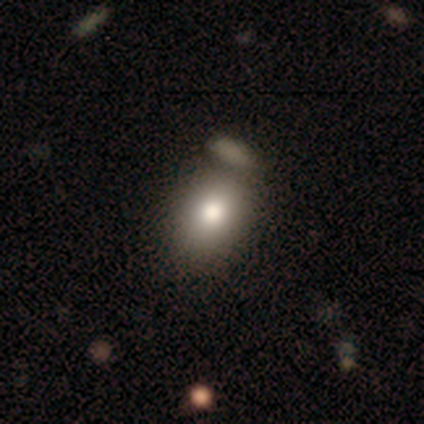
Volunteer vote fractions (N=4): smooth-or-featured: smooth: 50% | featured or disk: 25% | star or artifact: 25%
  how-rounded: in between: 100% | round: 0% | cigar-shaped: 0%
  merging: major disturbance: 67% | merger: 33% | none: 0% | minor disturbance: 0%